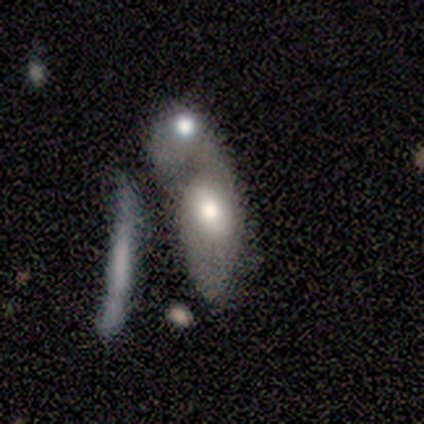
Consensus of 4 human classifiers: Consensus on every question: smooth or featured — smooth (100%); how rounded — in between (100%); merging — merger (100%).